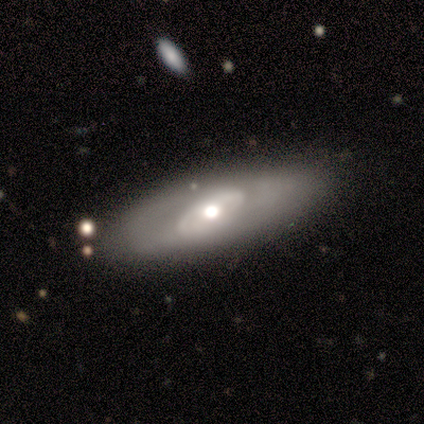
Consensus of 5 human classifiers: A featured or disk galaxy (100%) with no bar (75%), no spiral arms (100%) and a moderate central bulge (50%).

Vote fractions:
- Smooth or featured? featured or disk: 100% / smooth: 0% / star or artifact: 0%
- Edge-on disk? no: 80% / yes: 20%
- Bar? no: 75% / strong: 25% / weak: 0%
- Spiral arms? no: 100% / yes: 0%
- Bulge size? moderate: 50% / large: 25% / small: 25% / dominant: 0% / none: 0%
- Merging? none: 60% / minor disturbance: 20% / merger: 20% / major disturbance: 0%